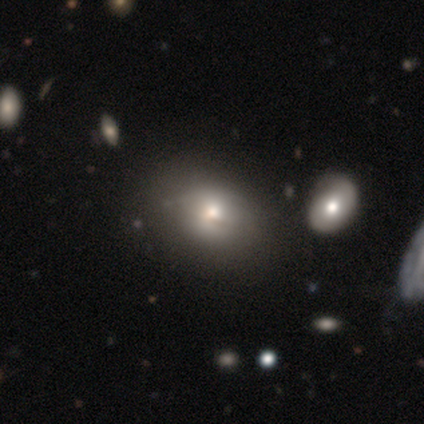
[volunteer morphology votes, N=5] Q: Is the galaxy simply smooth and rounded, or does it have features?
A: smooth — 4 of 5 (80%).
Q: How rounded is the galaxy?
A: in between — 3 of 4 (75%).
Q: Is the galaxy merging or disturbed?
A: none — 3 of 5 (60%).